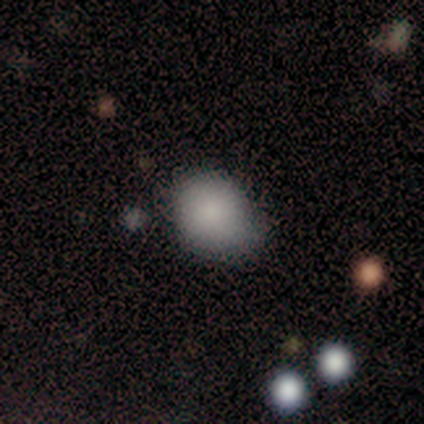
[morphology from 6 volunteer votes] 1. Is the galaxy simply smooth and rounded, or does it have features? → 100% smooth, 0% featured or disk, 0% star or artifact.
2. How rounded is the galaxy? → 83% in between, 17% round, 0% cigar-shaped.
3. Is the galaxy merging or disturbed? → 83% none, 17% minor disturbance, 0% major disturbance, 0% merger.